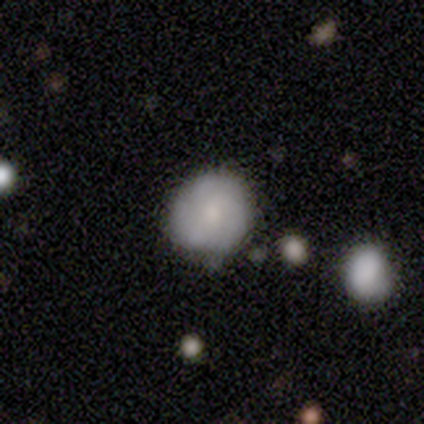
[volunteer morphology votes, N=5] A smooth galaxy with no disk features (60%) that is round (100%). Merging: none (100%).